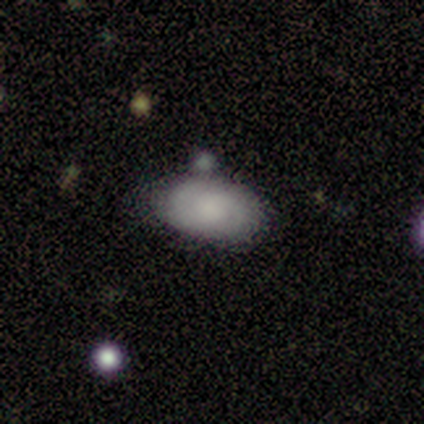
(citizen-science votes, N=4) This appears to be a smooth galaxy with no disk features (50%, tied with featured or disk) that is round (50%, tied with in between). Merging: none (100%).